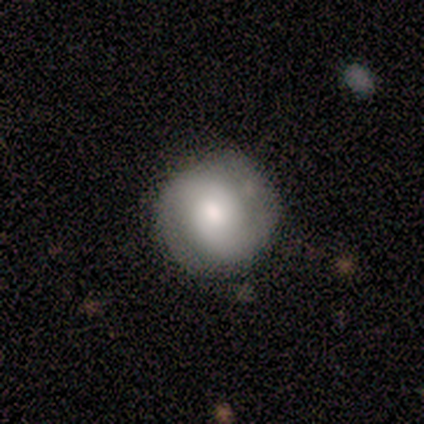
Smooth or featured? 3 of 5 (60%) said featured or disk. Edge-on disk? 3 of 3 (100%) said no. Bar? 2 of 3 (67%) said weak. Spiral arms? 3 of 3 (100%) said yes. Spiral winding? 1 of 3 (33%, tied with medium and loose) said tight. Spiral arm count? 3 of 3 (100%) said 2. Bulge size? 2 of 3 (67%) said moderate. Merging? 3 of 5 (60%) said none.